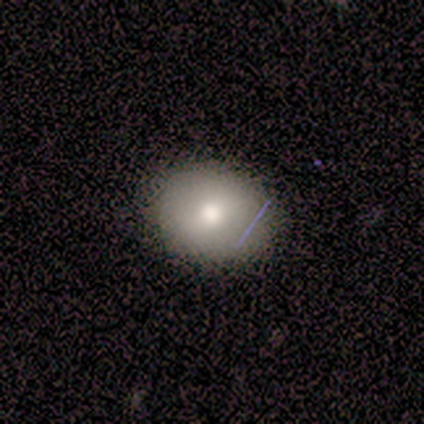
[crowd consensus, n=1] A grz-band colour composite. It shows a smooth galaxy with no disk features (100%) that is in between round and cigar-shaped (100%). Merging: none (100%).